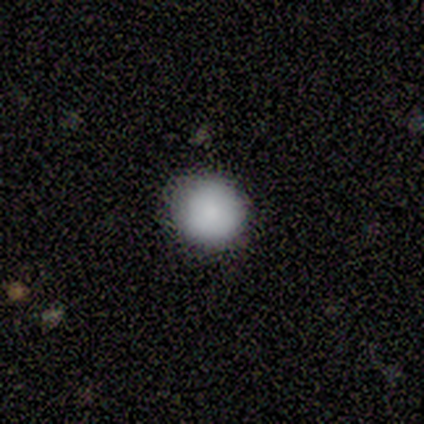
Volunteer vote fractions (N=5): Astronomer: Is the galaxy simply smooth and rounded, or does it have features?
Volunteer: smooth — 60%.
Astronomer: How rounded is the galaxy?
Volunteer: round — 100%.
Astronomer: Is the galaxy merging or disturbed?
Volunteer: none — 100%.